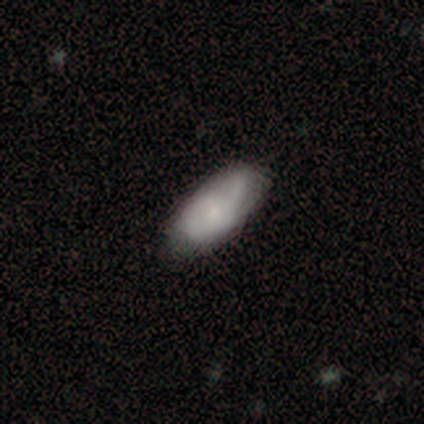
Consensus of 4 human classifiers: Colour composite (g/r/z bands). It shows a smooth galaxy with no disk features (75%) that is in between round and cigar-shaped (100%). Merging: none (75%).